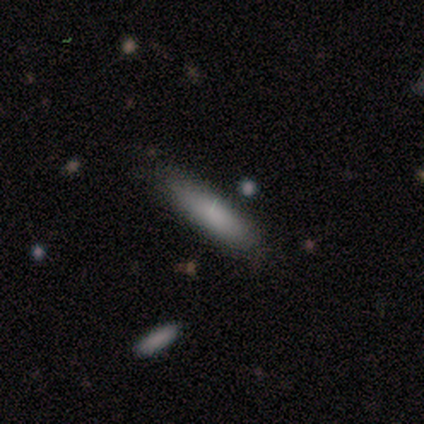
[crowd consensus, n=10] Smooth or featured? 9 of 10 (90%) said smooth. How rounded? 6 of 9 (67%) said cigar-shaped. Merging? 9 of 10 (90%) said none.